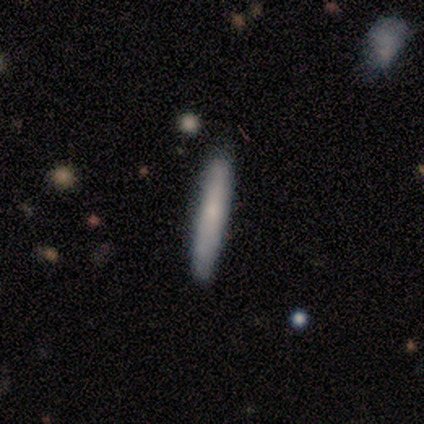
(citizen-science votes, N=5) A smooth galaxy with no disk features (60%) that is cigar-shaped (100%).

Vote fractions:
- Smooth or featured? smooth: 60% / featured or disk: 20% / star or artifact: 20%
- How rounded? cigar-shaped: 100% / round: 0% / in between: 0%
- Merging? none: 100% / minor disturbance: 0% / major disturbance: 0% / merger: 0%